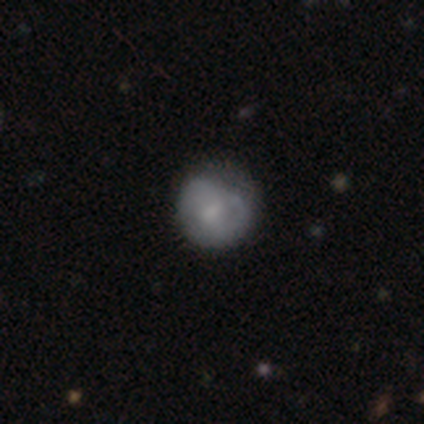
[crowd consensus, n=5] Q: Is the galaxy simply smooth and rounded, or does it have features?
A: smooth — 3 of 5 (60%).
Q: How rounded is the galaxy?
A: round — 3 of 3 (100%).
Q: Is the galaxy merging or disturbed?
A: minor disturbance — 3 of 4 (75%).